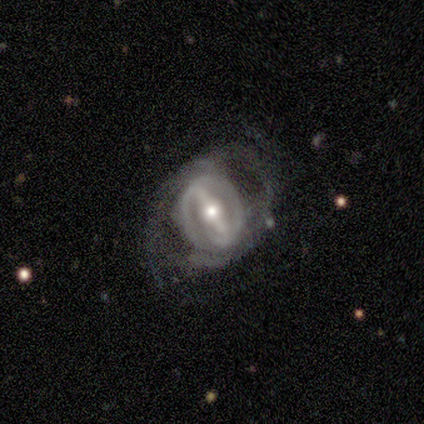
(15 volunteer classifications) Volunteers were most divided on "spiral winding" (2-way tie): tight: 40%, loose: 40%, medium: 20%. More confident: smooth or featured — featured or disk (93%); edge-on disk — no (93%); bar — strong (92%); spiral arm count — 2 (80%); spiral arms — yes (77%); bulge size — moderate (69%); merging — none (60%).